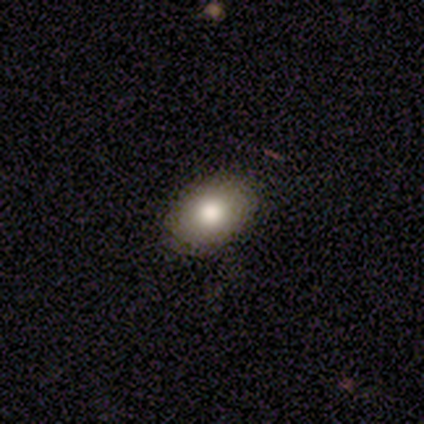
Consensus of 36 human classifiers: Smooth or featured? smooth (86%)
How rounded? in between (94%)
Merging? none (86%)